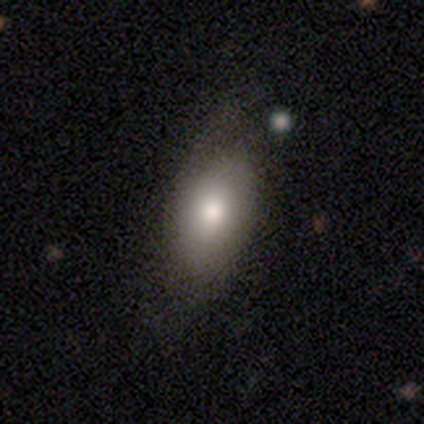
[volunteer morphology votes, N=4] A smooth galaxy with no disk features (50%, tied with featured or disk) that is in between round and cigar-shaped (100%). Merging: none (75%).